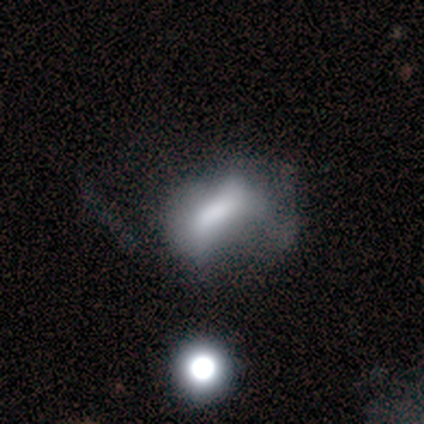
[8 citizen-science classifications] A smooth galaxy with no disk features (50%, tied with featured or disk) that is in between round and cigar-shaped (50%).

Vote fractions:
- Smooth or featured? smooth: 50% (tied) / featured or disk: 50% (tied) / star or artifact: 0%
- How rounded? in between: 50% / round: 25% / cigar-shaped: 25%
- Merging? minor disturbance: 38% (tied) / major disturbance: 38% (tied) / none: 12% / merger: 12%